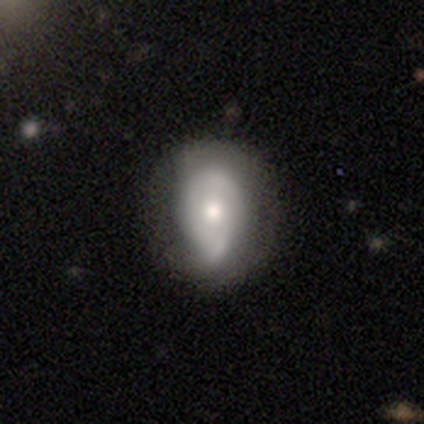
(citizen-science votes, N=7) This appears to be a featured or disk galaxy (57%) with no bar (75%), 2 (50%, tied with 3) tight (50%, tied with medium) spiral arms (50%, tied with no) and a moderate central bulge (50%). Merging: minor disturbance (67%).